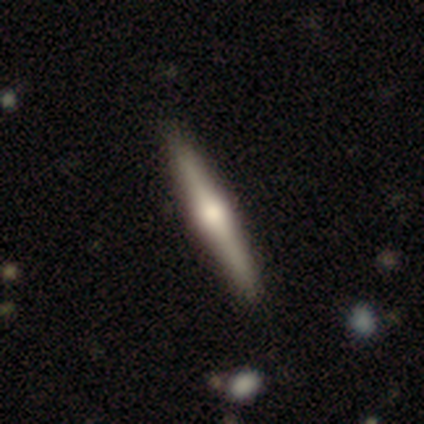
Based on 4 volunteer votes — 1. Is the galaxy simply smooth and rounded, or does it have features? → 100% featured or disk, 0% smooth, 0% star or artifact.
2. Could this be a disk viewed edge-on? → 100% yes, 0% no.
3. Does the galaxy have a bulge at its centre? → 75% rounded, 25% none, 0% boxy.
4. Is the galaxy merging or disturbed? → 100% none, 0% minor disturbance, 0% major disturbance, 0% merger.